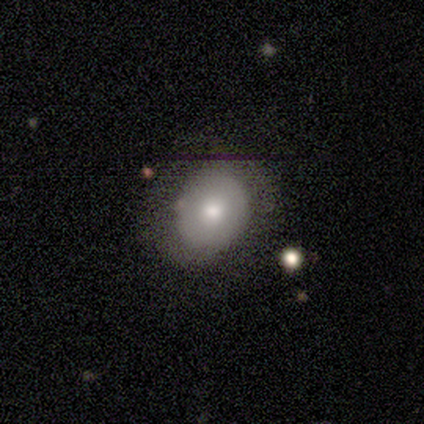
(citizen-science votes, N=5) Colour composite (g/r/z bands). It shows a smooth galaxy with no disk features (80%) that is round (100%). Merging: none (60%).